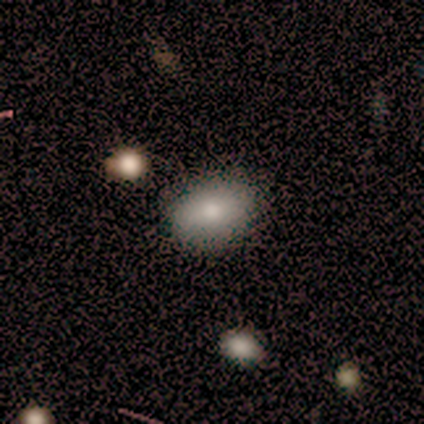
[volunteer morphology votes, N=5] Q: Smooth or featured?
A: smooth (100%)
Q: How rounded?
A: in between (80%); runner-up: round (20%)
Q: Merging?
A: none (80%); runner-up: minor disturbance (20%)